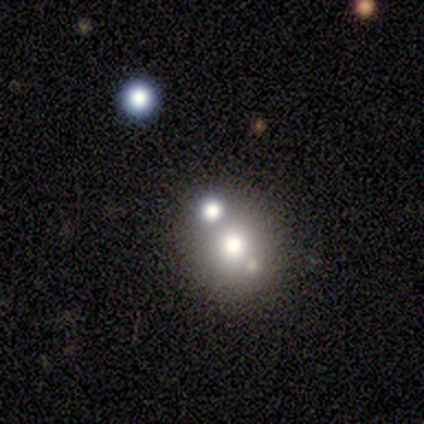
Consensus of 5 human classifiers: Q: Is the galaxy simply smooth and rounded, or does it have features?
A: smooth — 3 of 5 (60%).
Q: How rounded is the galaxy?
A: in between — 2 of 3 (67%).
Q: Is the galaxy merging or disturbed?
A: none — 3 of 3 (100%).